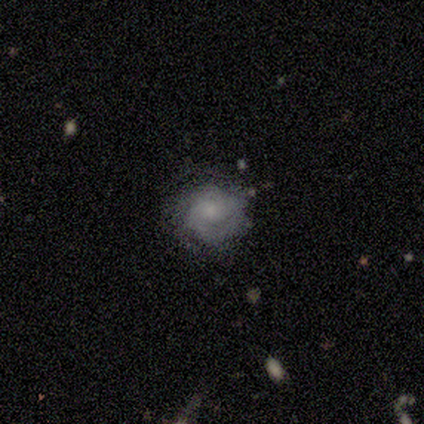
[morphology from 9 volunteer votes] Volunteers were most divided on "spiral arm count" (2-way tie): 3: 33%, can't tell: 33%, 2: 17%, more than 4: 17%, 1: 0%, 4: 0%. More confident: edge-on disk — no (100%); spiral winding — tight (100%); merging — none (89%); bar — no (86%); spiral arms — yes (86%); smooth or featured — featured or disk (78%); bulge size — moderate (57%).